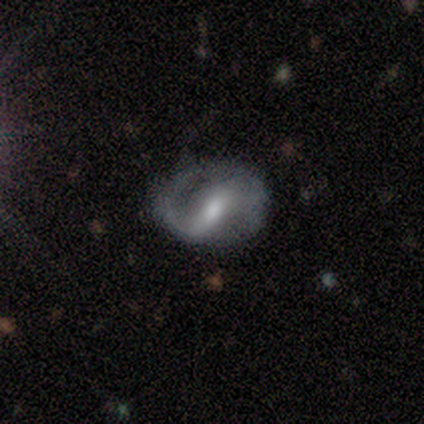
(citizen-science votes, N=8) Q: Smooth or featured?
A: featured or disk (88%); runner-up: smooth (12%)
Q: Edge-on disk?
A: no (100%)
Q: Bar?
A: strong (57%); runner-up: no (29%)
Q: Spiral arms?
A: yes (100%)
Q: Spiral winding?
A: tight (43%); tied with: medium (43%)
Q: Spiral arm count?
A: 2 (100%)
Q: Bulge size?
A: moderate (71%); runner-up: small (29%)
Q: Merging?
A: none (50%); tied with: minor disturbance (50%)